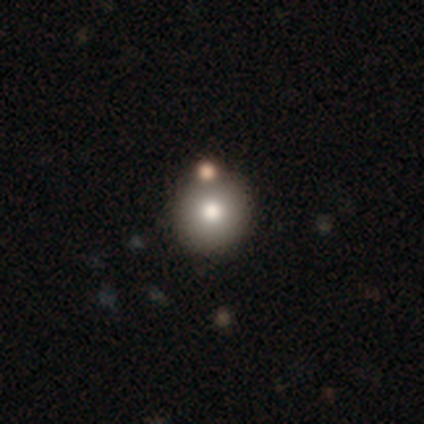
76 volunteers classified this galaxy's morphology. smooth-or-featured: smooth: 78% | featured or disk: 13% | star or artifact: 9%
  how-rounded: round: 98% | in between: 2% | cigar-shaped: 0%
  merging: none: 43% | merger: 26% | minor disturbance: 4% | major disturbance: 0%